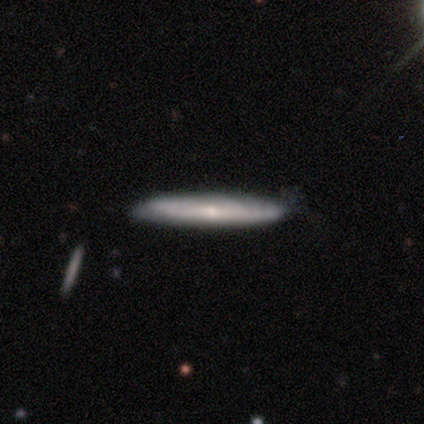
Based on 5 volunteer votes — This is clearly a featured or disk galaxy (80%). It is likely viewed edge-on (75%). Edge-on bulge: likely none (67%). Merging: clearly none (100%).